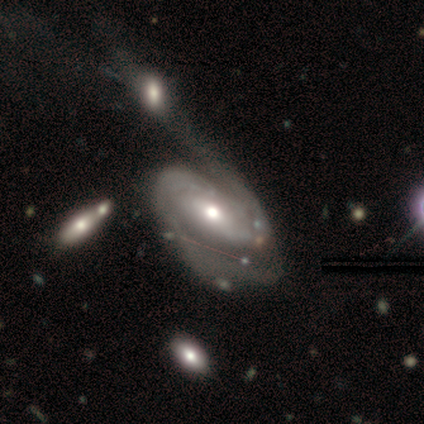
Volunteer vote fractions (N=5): This appears to be a featured or disk galaxy (100%) with no bar (80%), 2 (50%) tight (75%) spiral arms (80%) and a moderate central bulge (100%). Merging: merger (40%).